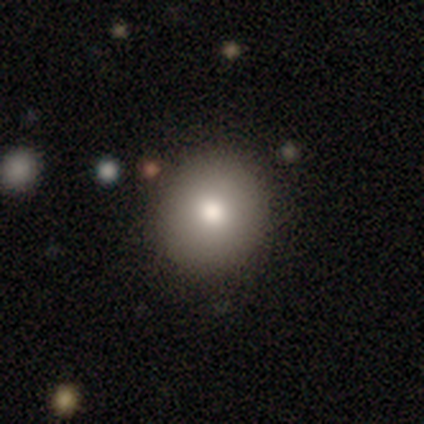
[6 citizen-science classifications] Morphology: type=smooth (67%); roundness=round (100%); merging=none (80%).